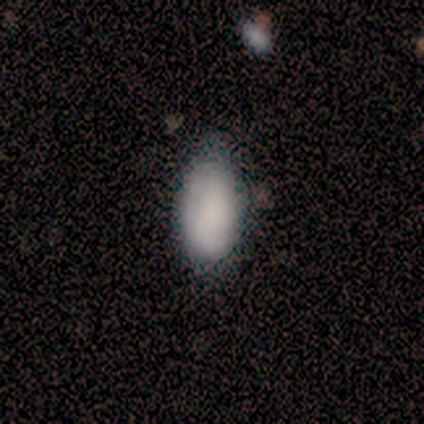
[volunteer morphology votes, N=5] Volunteers were most divided on "how rounded": in between: 80%, cigar-shaped: 20%, round: 0%. More confident: smooth or featured — smooth (100%); merging — none (80%).